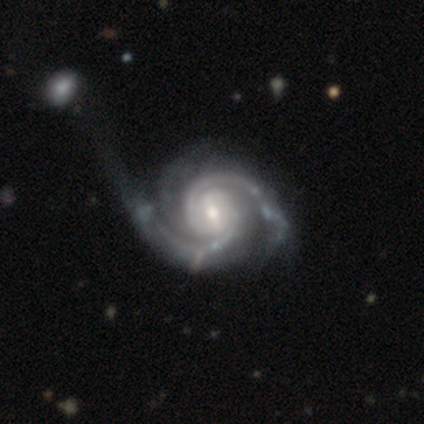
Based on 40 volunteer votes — Smooth or featured: featured or disk — 98% (star or artifact — 2%)
Edge-on disk: no — 95% (yes — 5%)
Bar: weak — 38% (strong — 32%)
Spiral arms: yes — 100%
Spiral winding: tight — 59% (medium — 32%)
Spiral arm count: 2 — 81% (3 — 16%)
Bulge size: moderate — 49% (small — 41%)
Merging: none — 33% (major disturbance — 26%)